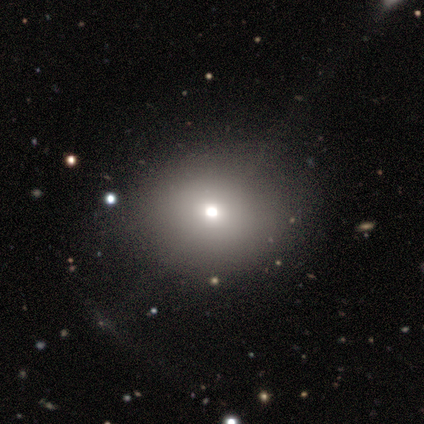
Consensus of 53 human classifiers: Morphology: type=smooth (72%); roundness=in between (53%); merging=none (80%).